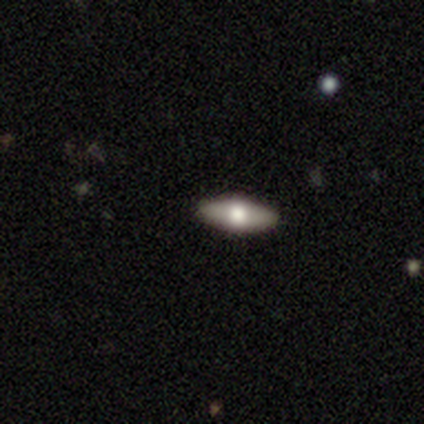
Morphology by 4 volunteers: Smooth or featured?
  - smooth: 50% *
  - featured or disk: 25%
  - star or artifact: 25%
How rounded?
  - in between: 100% *
  - round: 0%
  - cigar-shaped: 0%
Merging?
  - none: 67% *
  - major disturbance: 33%
  - minor disturbance: 0%
  - merger: 0%